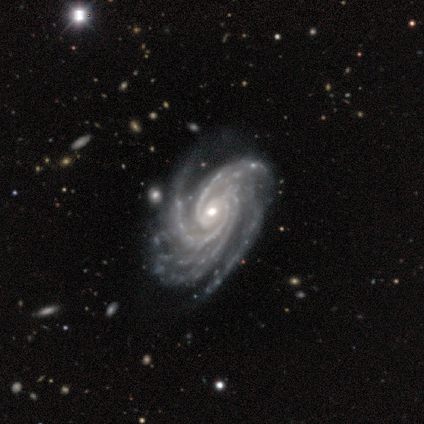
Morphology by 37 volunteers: A featured or disk galaxy (100%) with no bar (78%), 4 (42%) tight (81%) spiral arms (100%) and a moderate central bulge (61%).

Vote fractions:
- Smooth or featured? featured or disk: 100% / smooth: 0% / star or artifact: 0%
- Edge-on disk? no: 97% / yes: 3%
- Bar? no: 78% / weak: 17% / strong: 6%
- Spiral arms? yes: 100% / no: 0%
- Spiral winding? tight: 81% / medium: 19% / loose: 0%
- Spiral arm count? 4: 42% / 3: 22% / more than 4: 22% / can't tell: 11% / 2: 3% / 1: 0%
- Bulge size? moderate: 61% / small: 39% / dominant: 0% / large: 0% / none: 0%
- Merging? none: 49% / minor disturbance: 11% / major disturbance: 8% / merger: 3%